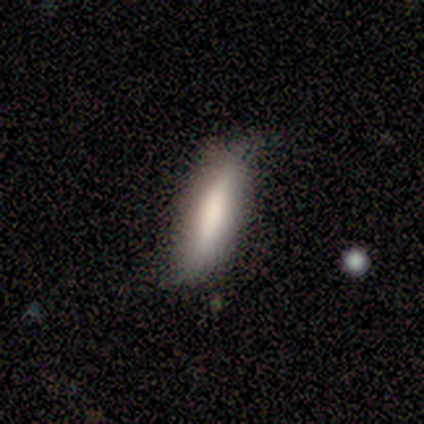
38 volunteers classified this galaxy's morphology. Volunteers were most divided on "smooth or featured": smooth: 61%, featured or disk: 34%, star or artifact: 5%. More confident: how rounded — cigar-shaped (83%); merging — none (75%).